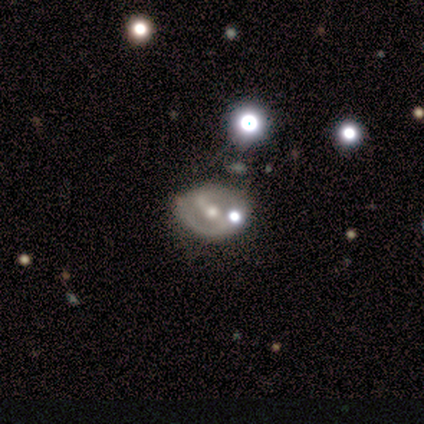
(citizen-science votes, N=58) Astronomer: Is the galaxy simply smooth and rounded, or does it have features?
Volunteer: featured or disk — 79%.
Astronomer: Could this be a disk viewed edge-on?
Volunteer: no — 100%.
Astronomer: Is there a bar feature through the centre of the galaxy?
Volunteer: strong — 43% (runner-up: weak, 28%).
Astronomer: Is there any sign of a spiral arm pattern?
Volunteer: yes — 70%.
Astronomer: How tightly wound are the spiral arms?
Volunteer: tight — 41% (runner-up: medium, 34%).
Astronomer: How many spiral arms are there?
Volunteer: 2 — 78%.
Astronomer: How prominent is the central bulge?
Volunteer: moderate — 67%.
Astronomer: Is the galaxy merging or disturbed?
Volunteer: none — 58%.